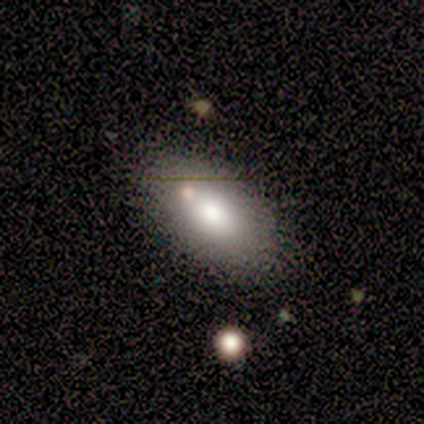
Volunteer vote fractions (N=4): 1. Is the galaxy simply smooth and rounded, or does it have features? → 75% smooth, 25% featured or disk, 0% star or artifact.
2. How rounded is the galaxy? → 100% in between, 0% round, 0% cigar-shaped.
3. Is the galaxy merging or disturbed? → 75% none, 25% minor disturbance, 0% major disturbance, 0% merger.